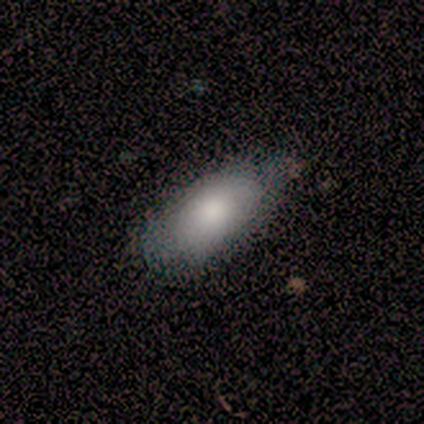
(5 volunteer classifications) A smooth galaxy with no disk features (100%) that is in between round and cigar-shaped (80%). Merging: none (60%).